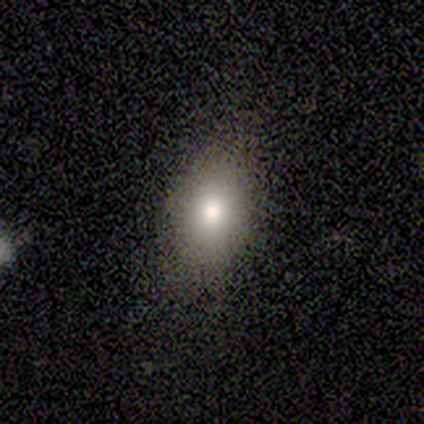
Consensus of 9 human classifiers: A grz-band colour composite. It shows a smooth galaxy with no disk features (56%) that is in between round and cigar-shaped (60%). Merging: none (86%).